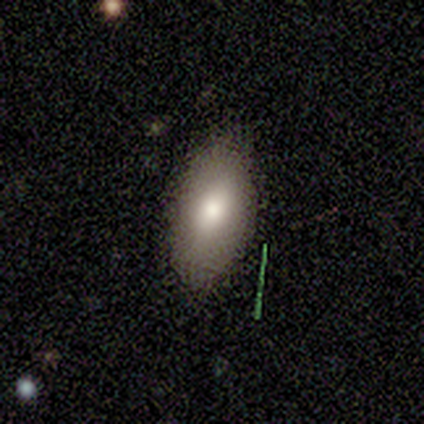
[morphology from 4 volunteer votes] type=smooth (100%); roundness=in between (100%); merging=minor disturbance (50%).